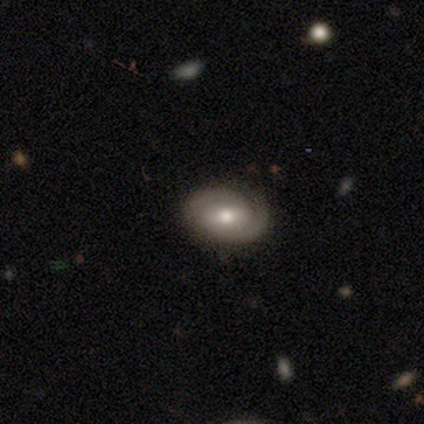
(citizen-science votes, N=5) smooth-or-featured: featured or disk: 80% | smooth: 20% | star or artifact: 0%
  disk-edge-on: no: 100% | yes: 0%
    bar: no: 100% | strong: 0% | weak: 0%
    has-spiral-arms: yes: 100% | no: 0%
      spiral-winding: medium: 75% | tight: 25% | loose: 0%
      spiral-arm-count: 2: 75% | can't tell: 25% | 1: 0% | 3: 0% | 4: 0% | more than 4: 0%
    bulge-size: moderate: 75% | small: 25% | dominant: 0% | large: 0% | none: 0%
  merging: none: 100% | minor disturbance: 0% | major disturbance: 0% | merger: 0%